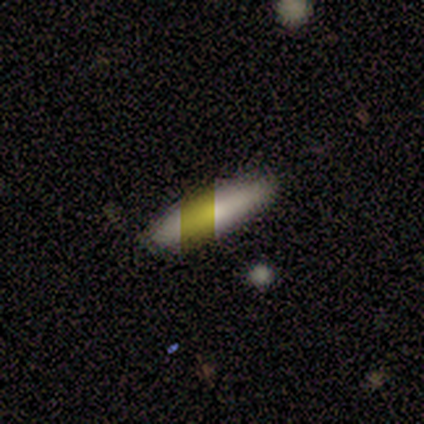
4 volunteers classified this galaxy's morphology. Smooth or featured?
  - smooth: 50% * (tied)
  - featured or disk: 50% * (tied)
  - star or artifact: 0%
How rounded?
  - in between: 50% * (tied)
  - cigar-shaped: 50% * (tied)
  - round: 0%
Merging?
  - none: 75% *
  - major disturbance: 25%
  - minor disturbance: 0%
  - merger: 0%